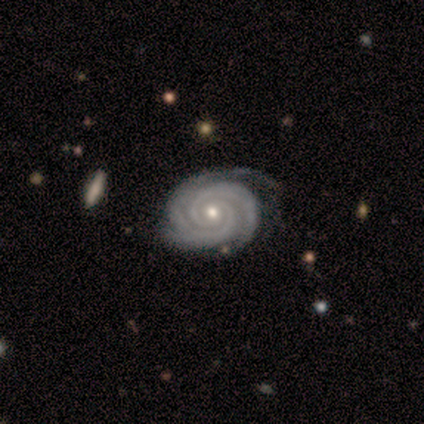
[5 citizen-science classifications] Smooth or featured? 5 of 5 (100%) said featured or disk. Edge-on disk? 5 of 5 (100%) said no. Bar? 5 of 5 (100%) said no. Spiral arms? 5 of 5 (100%) said yes. Spiral winding? 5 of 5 (100%) said tight. Spiral arm count? 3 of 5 (60%) said 2. Bulge size? 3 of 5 (60%) said small. Merging? 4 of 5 (80%) said none.